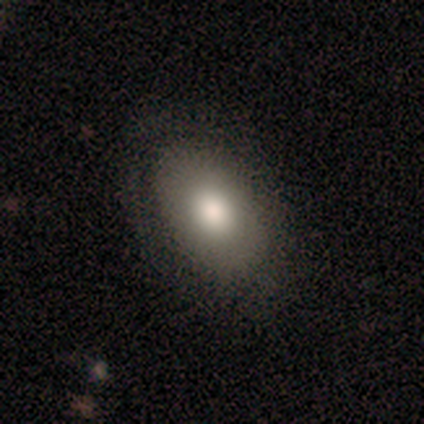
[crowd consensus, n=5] Smooth or featured?
  - smooth: 80% *
  - star or artifact: 20%
  - featured or disk: 0%
How rounded?
  - in between: 100% *
  - round: 0%
  - cigar-shaped: 0%
Merging?
  - none: 75% *
  - minor disturbance: 25%
  - major disturbance: 0%
  - merger: 0%